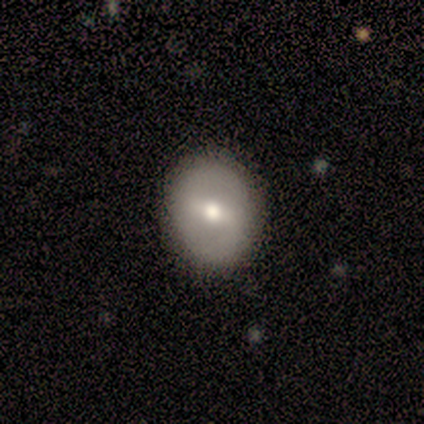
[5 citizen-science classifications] featured or disk 80%, smooth 20%, star or artifact 0%. Down the decision tree: edge-on disk — no (100%); bar — no (75%); spiral arms — no (75%); bulge size — moderate (50%); merging — none (60%).